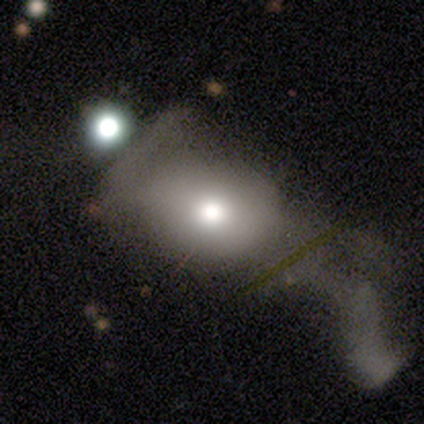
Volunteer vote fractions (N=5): Overall: smooth (100%). How rounded: round (60%; in between 40%). Merging: merger (60%; major disturbance 40%).